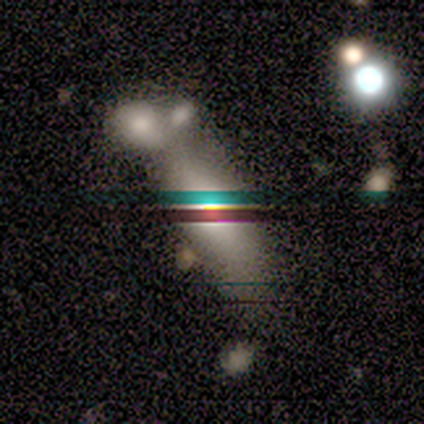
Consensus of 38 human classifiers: Morphology: type=smooth (53%); roundness=in between (60%); merging=none (48%).